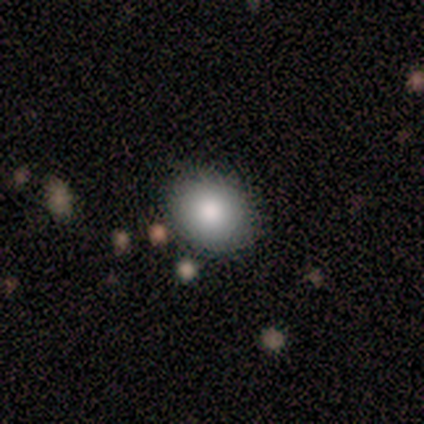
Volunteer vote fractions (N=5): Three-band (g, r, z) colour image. It shows a smooth galaxy with no disk features (80%) that is round (75%). Merging: none (100%).